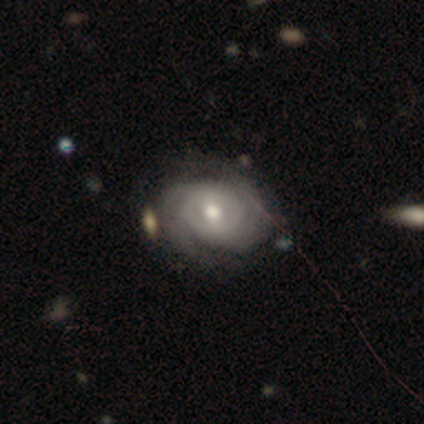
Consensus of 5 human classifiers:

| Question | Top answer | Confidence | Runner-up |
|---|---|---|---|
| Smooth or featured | featured or disk | 100% | — |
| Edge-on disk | no | 100% | — |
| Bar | weak | 40% | tied: no (40%) |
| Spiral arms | yes | 100% | — |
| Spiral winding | tight | 60% | medium (20%) |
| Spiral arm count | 2 | 40% | tied: can't tell (40%) |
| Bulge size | moderate | 80% | small (20%) |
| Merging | none | 80% | minor disturbance (20%) |